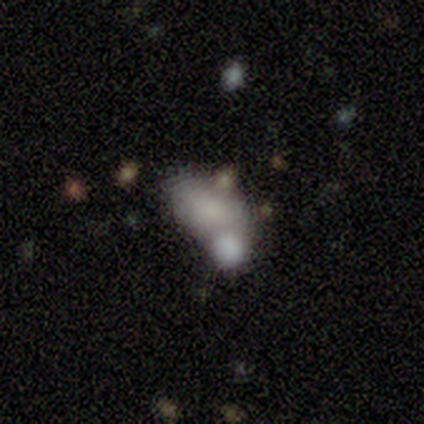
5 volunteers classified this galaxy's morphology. This is clearly a smooth galaxy (80%). How rounded: clearly in between (100%). Merging: likely merger (75%).